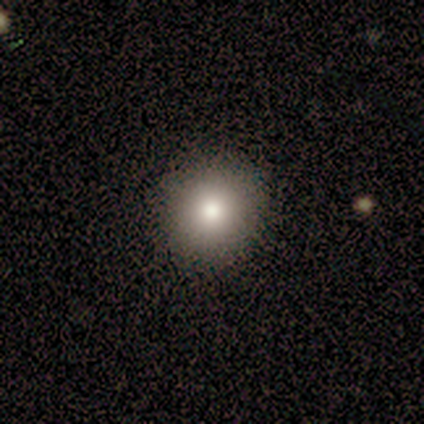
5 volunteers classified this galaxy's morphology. smooth 100%, featured or disk 0%, star or artifact 0%. Down the decision tree: how rounded — round (80%); merging — none (80%).